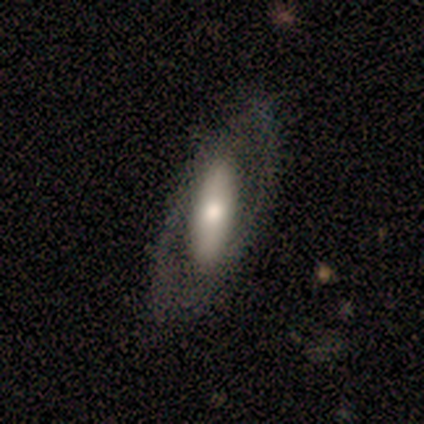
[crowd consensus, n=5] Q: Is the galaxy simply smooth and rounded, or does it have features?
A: smooth — 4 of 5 (80%).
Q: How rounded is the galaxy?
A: in between — 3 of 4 (75%).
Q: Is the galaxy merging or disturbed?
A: none — 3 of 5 (60%).